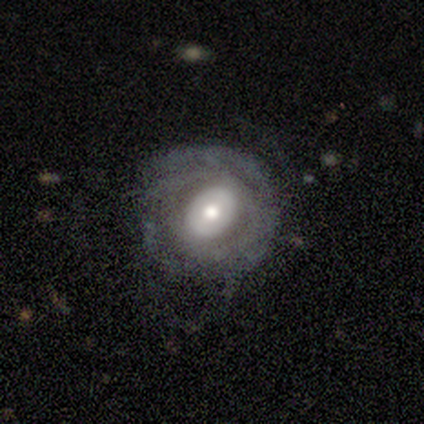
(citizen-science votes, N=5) Morphology: type=featured or disk (80%); edge-on=no (100%); bar=no (100%); spiral arms=no (100%); bulge=moderate (75%); merging=none (80%).